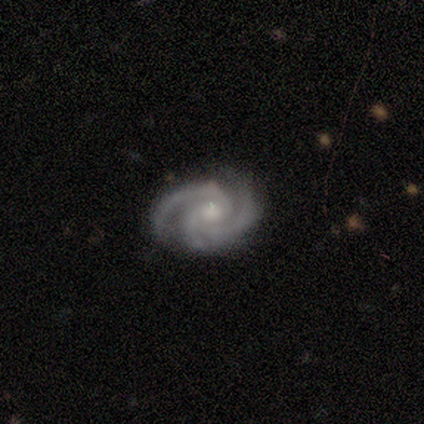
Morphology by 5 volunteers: smooth-or-featured: featured or disk: 80% | star or artifact: 20% | smooth: 0%
  disk-edge-on: no: 75% | yes: 25%
    bar: no: 67% | weak: 33% | strong: 0%
    has-spiral-arms: yes: 100% | no: 0%
      spiral-winding: tight: 100% | medium: 0% | loose: 0%
      spiral-arm-count: 3: 100% | 1: 0% | 2: 0% | 4: 0% | more than 4: 0% | can't tell: 0%
    bulge-size: moderate: 67% | small: 33% | dominant: 0% | large: 0% | none: 0%
  merging: none: 100% | minor disturbance: 0% | major disturbance: 0% | merger: 0%